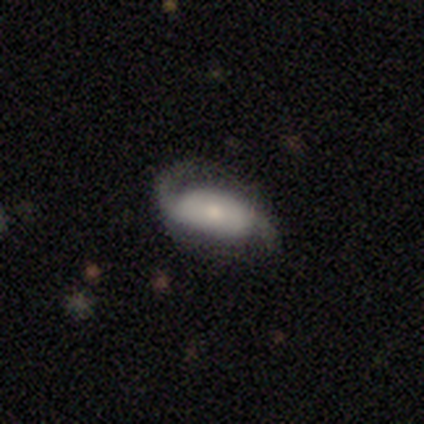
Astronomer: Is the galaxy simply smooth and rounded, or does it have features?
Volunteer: featured or disk — 80%.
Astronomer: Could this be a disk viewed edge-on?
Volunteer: no — 100%.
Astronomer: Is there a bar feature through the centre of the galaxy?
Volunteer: no — 75%.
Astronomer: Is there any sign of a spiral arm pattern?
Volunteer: yes — 100%.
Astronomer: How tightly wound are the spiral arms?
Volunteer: loose — 100%.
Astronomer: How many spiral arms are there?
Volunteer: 2 — 100%.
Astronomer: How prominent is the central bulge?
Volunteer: small — 75%.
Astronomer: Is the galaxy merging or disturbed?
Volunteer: none — 80%.